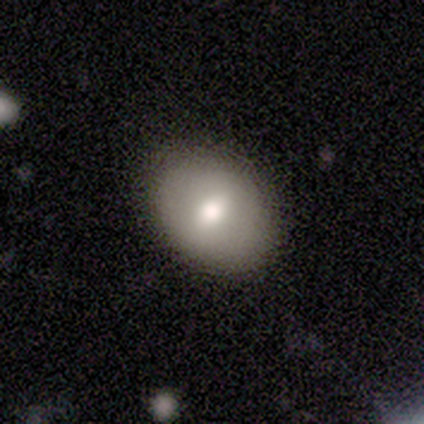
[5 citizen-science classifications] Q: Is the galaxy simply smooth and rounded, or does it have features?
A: smooth — 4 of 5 (80%).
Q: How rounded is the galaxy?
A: in between — 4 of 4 (100%).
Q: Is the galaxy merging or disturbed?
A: none — 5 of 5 (100%).